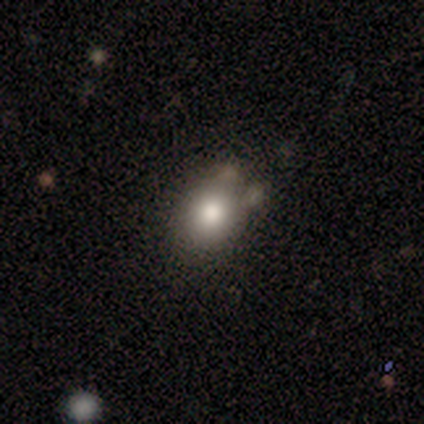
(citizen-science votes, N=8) Smooth or featured? smooth (88%)
How rounded? in between (57%)
Merging? none (75%)